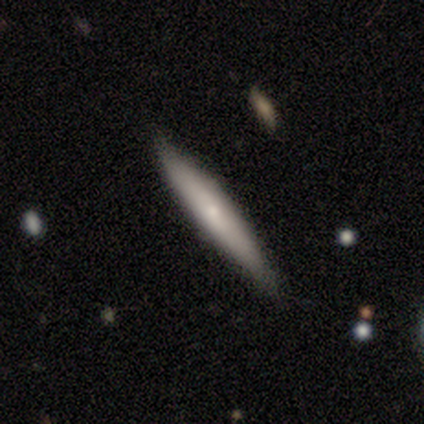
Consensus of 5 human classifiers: featured or disk 60%, smooth 40%, star or artifact 0%. Down the decision tree: edge-on disk — yes (100%); edge-on bulge — none (67%); merging — none (100%).